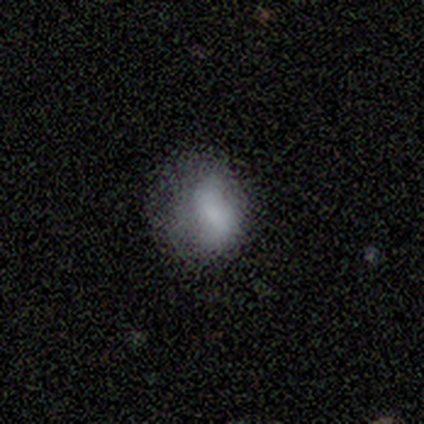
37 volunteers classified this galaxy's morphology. A smooth galaxy with no disk features (73%) that is round (52%).

Vote fractions:
- Smooth or featured? smooth: 73% / featured or disk: 16% / star or artifact: 11%
- How rounded? round: 52% / in between: 44% / cigar-shaped: 4%
- Merging? none: 64% / minor disturbance: 30% / major disturbance: 6% / merger: 0%